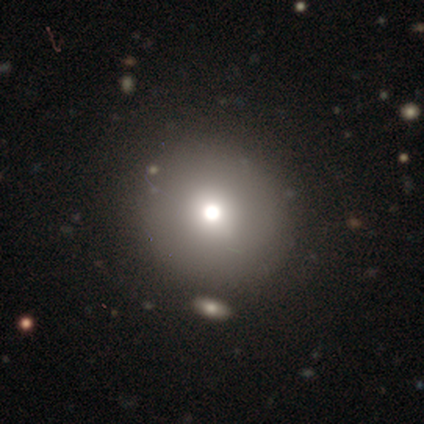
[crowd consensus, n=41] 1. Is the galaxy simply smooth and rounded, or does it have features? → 78% smooth, 15% star or artifact, 7% featured or disk.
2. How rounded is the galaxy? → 88% round, 9% in between, 3% cigar-shaped.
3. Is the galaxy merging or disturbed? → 86% none, 9% major disturbance, 3% minor disturbance, 3% merger.